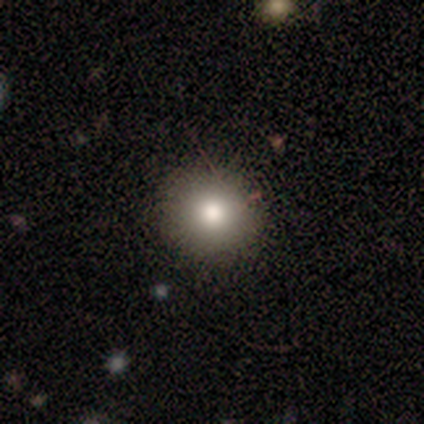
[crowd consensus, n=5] Q: Smooth or featured?
A: smooth (80%); runner-up: star or artifact (20%)
Q: How rounded?
A: round (100%)
Q: Merging?
A: none (75%); runner-up: minor disturbance (25%)